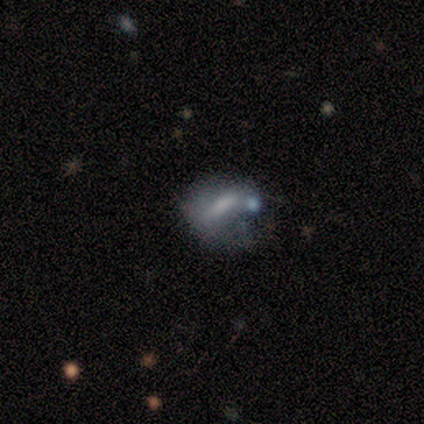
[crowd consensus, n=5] Q: Smooth or featured?
A: smooth (80%); runner-up: featured or disk (20%)
Q: How rounded?
A: round (50%); runner-up: in between (25%)
Q: Merging?
A: minor disturbance (60%); runner-up: none (20%)